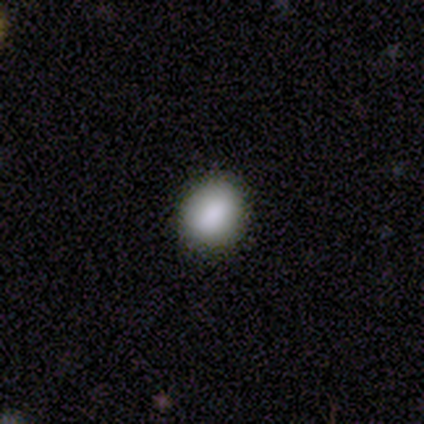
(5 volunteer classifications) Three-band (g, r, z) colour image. It shows a smooth galaxy with no disk features (100%) that is round (80%). Merging: none (100%).